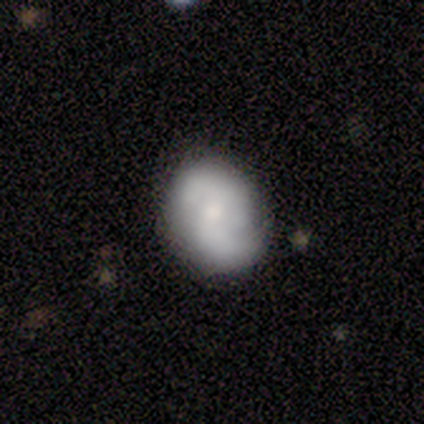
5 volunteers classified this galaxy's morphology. Smooth or featured? 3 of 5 (60%) said featured or disk. Edge-on disk? 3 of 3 (100%) said no. Bar? 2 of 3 (67%) said weak. Spiral arms? 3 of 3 (100%) said yes. Spiral winding? 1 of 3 (33%, tied with medium and loose) said tight. Spiral arm count? 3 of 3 (100%) said 2. Bulge size? 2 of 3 (67%) said small. Merging? 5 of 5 (100%) said none.